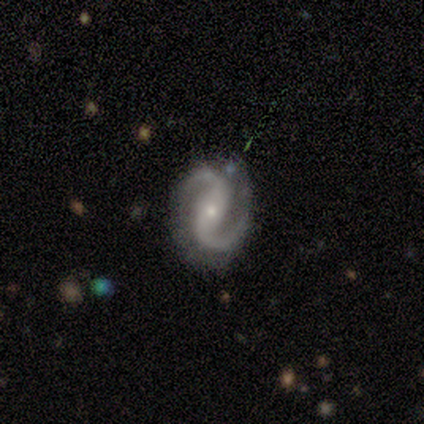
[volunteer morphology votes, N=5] A featured or disk galaxy (100%) with a strong bar (50%, tied with weak), 2 (100%) medium (75%) spiral arms (100%) and a small central bulge (100%).

Vote fractions:
- Smooth or featured? featured or disk: 100% / smooth: 0% / star or artifact: 0%
- Edge-on disk? no: 80% / yes: 20%
- Bar? strong: 50% (tied) / weak: 50% (tied) / no: 0%
- Spiral arms? yes: 100% / no: 0%
- Spiral winding? medium: 75% / loose: 25% / tight: 0%
- Spiral arm count? 2: 100% / 1: 0% / 3: 0% / 4: 0% / more than 4: 0% / can't tell: 0%
- Bulge size? small: 100% / dominant: 0% / large: 0% / moderate: 0% / none: 0%
- Merging? minor disturbance: 60% / none: 40% / major disturbance: 0% / merger: 0%